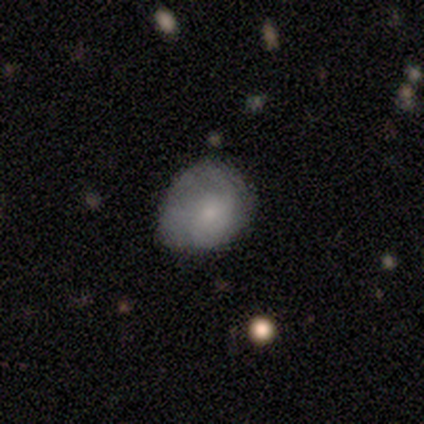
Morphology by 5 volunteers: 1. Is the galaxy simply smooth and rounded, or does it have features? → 100% smooth, 0% featured or disk, 0% star or artifact.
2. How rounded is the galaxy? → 60% round, 40% in between, 0% cigar-shaped.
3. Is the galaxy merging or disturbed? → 60% minor disturbance, 40% none, 0% major disturbance, 0% merger.